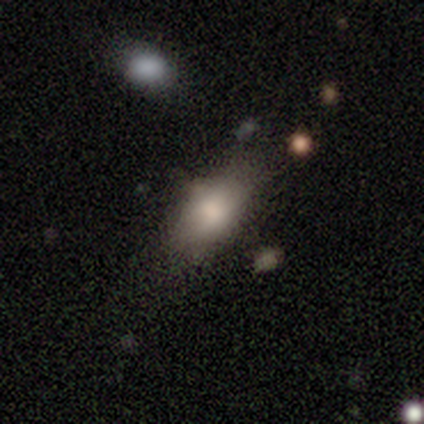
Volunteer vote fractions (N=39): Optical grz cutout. It shows a smooth galaxy with no disk features (64%) that is in between round and cigar-shaped (88%). Merging: none (57%).